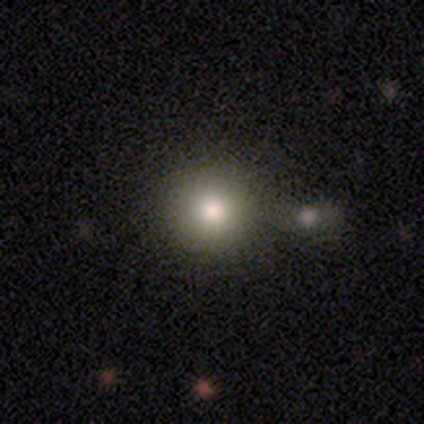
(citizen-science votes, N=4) Smooth or featured? 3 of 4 (75%) said smooth. How rounded? 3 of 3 (100%) said round. Merging? 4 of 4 (100%) said none.